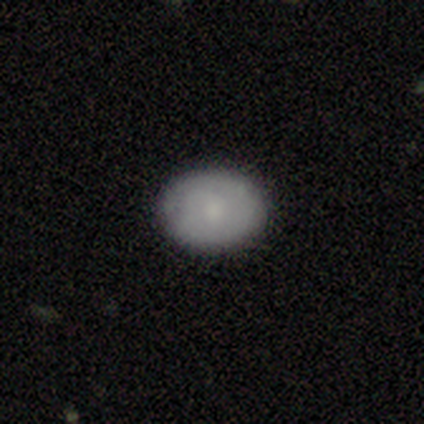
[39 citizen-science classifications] Smooth or featured? smooth (67%)
How rounded? in between (65%)
Merging? none (68%)